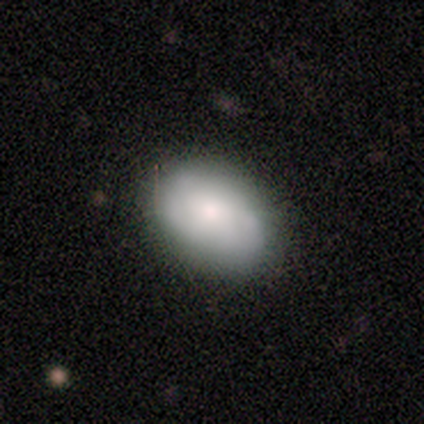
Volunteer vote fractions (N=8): Volunteers were most divided on "smooth or featured": smooth: 62%, featured or disk: 25%, star or artifact: 12%. More confident: how rounded — in between (100%); merging — none (100%).